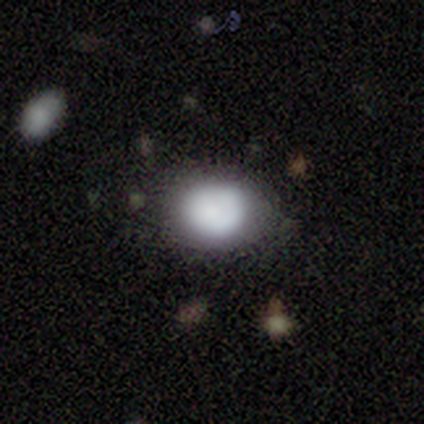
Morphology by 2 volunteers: A smooth galaxy with no disk features (100%) that is round (100%).

Vote fractions:
- Smooth or featured? smooth: 100% / featured or disk: 0% / star or artifact: 0%
- How rounded? round: 100% / in between: 0% / cigar-shaped: 0%
- Merging? none: 100% / minor disturbance: 0% / major disturbance: 0% / merger: 0%